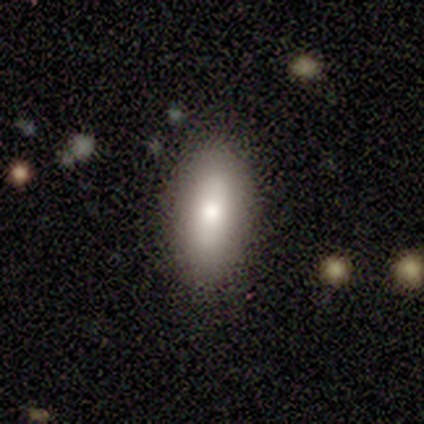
Smooth or featured?
  - smooth: 80% *
  - featured or disk: 20%
  - star or artifact: 0%
How rounded?
  - in between: 100% *
  - round: 0%
  - cigar-shaped: 0%
Merging?
  - none: 80% *
  - minor disturbance: 20%
  - major disturbance: 0%
  - merger: 0%